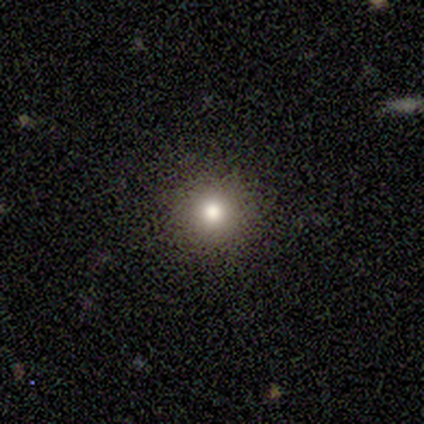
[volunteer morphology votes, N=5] smooth-or-featured: smooth: 80% | star or artifact: 20% | featured or disk: 0%
  how-rounded: round: 75% | in between: 25% | cigar-shaped: 0%
  merging: none: 100% | minor disturbance: 0% | major disturbance: 0% | merger: 0%